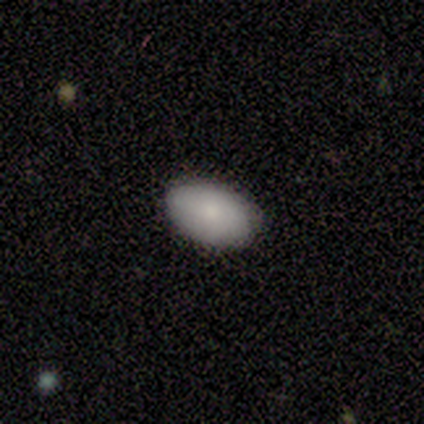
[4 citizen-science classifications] A smooth galaxy with no disk features (100%) that is in between round and cigar-shaped (100%).

Vote fractions:
- Smooth or featured? smooth: 100% / featured or disk: 0% / star or artifact: 0%
- How rounded? in between: 100% / round: 0% / cigar-shaped: 0%
- Merging? none: 100% / minor disturbance: 0% / major disturbance: 0% / merger: 0%